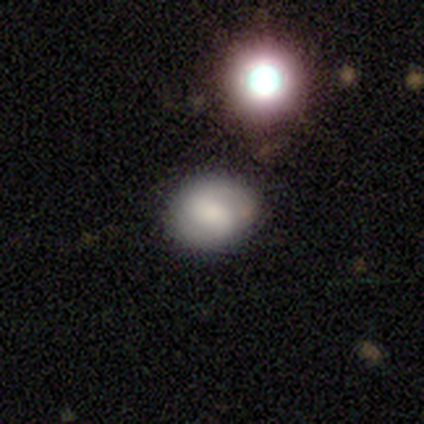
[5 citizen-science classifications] This appears to be a smooth galaxy with no disk features (80%) that is round (50%, tied with in between). Merging: none (100%).